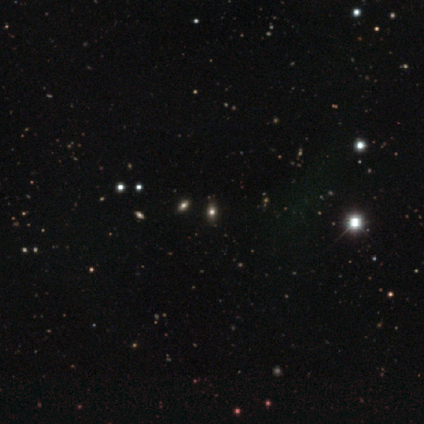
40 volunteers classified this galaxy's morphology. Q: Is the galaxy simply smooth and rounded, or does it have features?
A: star or artifact — 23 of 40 (57%).